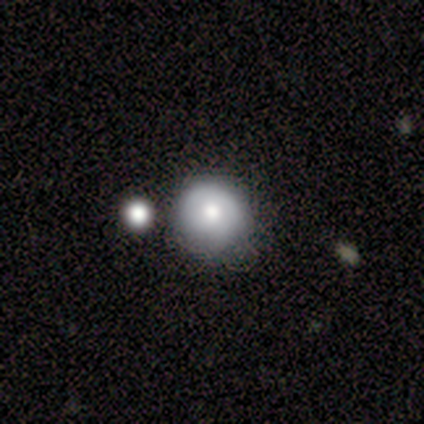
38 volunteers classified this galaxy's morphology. Smooth or featured: smooth — 61% (featured or disk — 26%)
How rounded: round — 96% (in between — 4%)
Merging: none — 48% (minor disturbance — 33%)